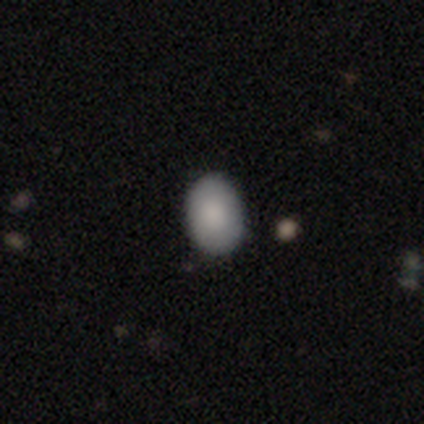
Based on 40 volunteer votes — A smooth galaxy with no disk features (88%) that is in between round and cigar-shaped (74%). Merging: none (72%).